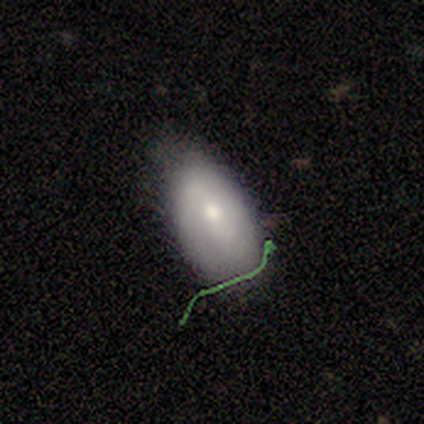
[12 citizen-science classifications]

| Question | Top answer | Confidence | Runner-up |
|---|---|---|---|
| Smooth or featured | smooth | 50% | tied: featured or disk (50%) |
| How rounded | in between | 100% | — |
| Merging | minor disturbance | 58% | none (42%) |